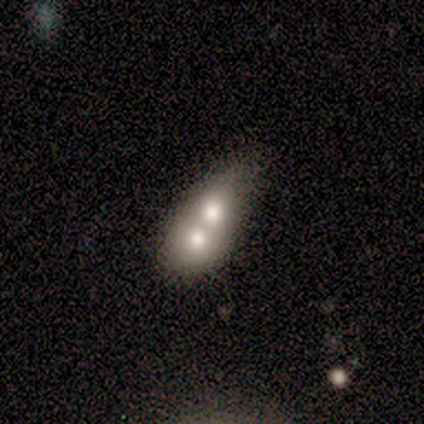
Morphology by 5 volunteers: smooth 60%, featured or disk 40%, star or artifact 0%. Down the decision tree: how rounded — in between (67%); merging — merger (80%).